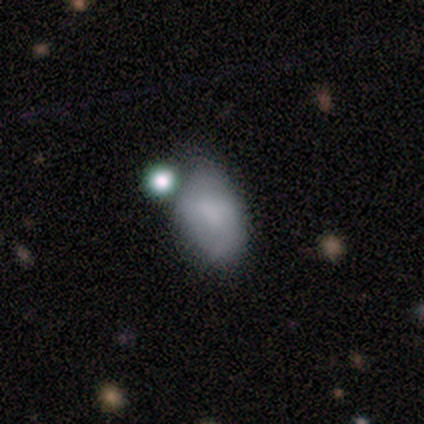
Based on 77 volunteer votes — Volunteers were most divided on "merging": merger: 28%, minor disturbance: 22%, none: 20%, major disturbance: 9%. More confident: how rounded — in between (98%); smooth or featured — smooth (74%).